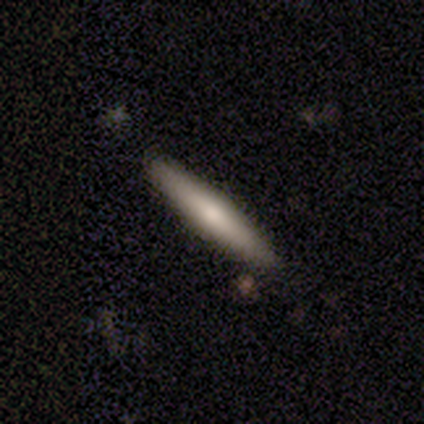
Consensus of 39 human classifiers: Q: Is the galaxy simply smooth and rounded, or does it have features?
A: smooth — 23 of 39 (59%).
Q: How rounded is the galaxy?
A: cigar-shaped — 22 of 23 (96%).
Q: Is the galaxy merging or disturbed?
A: none — 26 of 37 (70%).